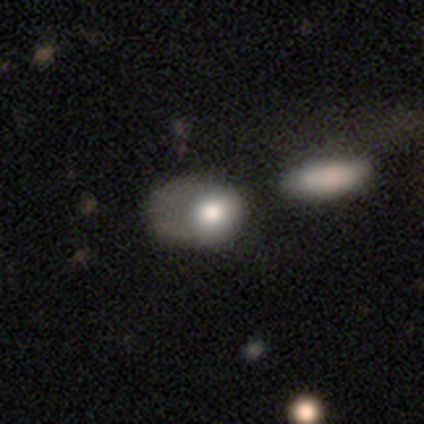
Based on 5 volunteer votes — Q: Smooth or featured?
A: smooth (80%); runner-up: star or artifact (20%)
Q: How rounded?
A: round (50%); tied with: in between (50%)
Q: Merging?
A: none (50%); tied with: major disturbance (50%)